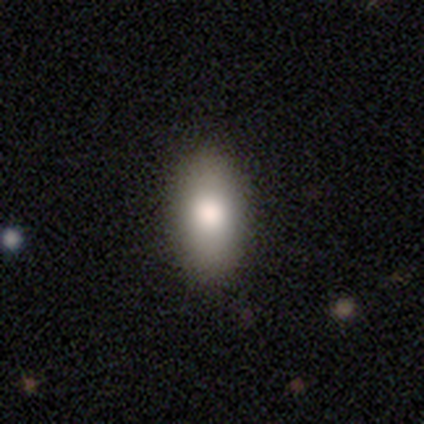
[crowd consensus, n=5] This is clearly a smooth galaxy (100%). How rounded: clearly in between (100%). Merging: clearly none (100%).